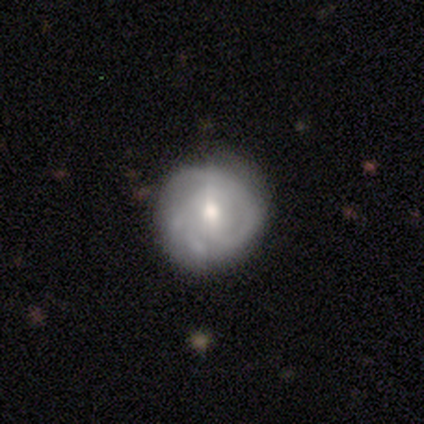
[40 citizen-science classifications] This appears to be a featured or disk galaxy (85%) with a weak bar (45%), 2 (50%) tight (50%) spiral arms (91%) and a moderate central bulge (58%). Merging: none (87%).